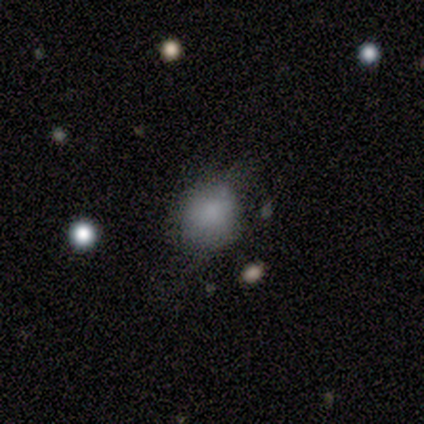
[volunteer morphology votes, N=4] smooth 75%, star or artifact 25%, featured or disk 0%. Down the decision tree: how rounded — round (67%); merging — none (67%).